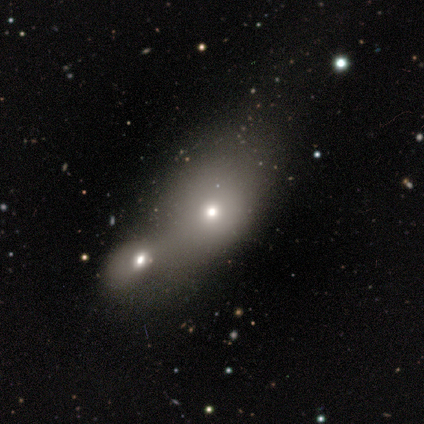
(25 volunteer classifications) Smooth or featured? 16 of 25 (64%) said smooth. How rounded? 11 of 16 (69%) said in between. Merging? 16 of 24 (67%) said merger.